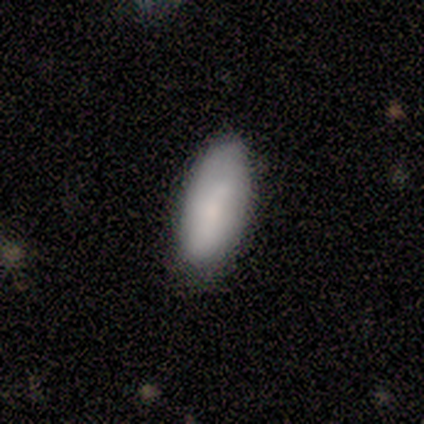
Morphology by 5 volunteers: smooth 80%, featured or disk 20%, star or artifact 0%. Down the decision tree: how rounded — in between (100%); merging — none (80%).